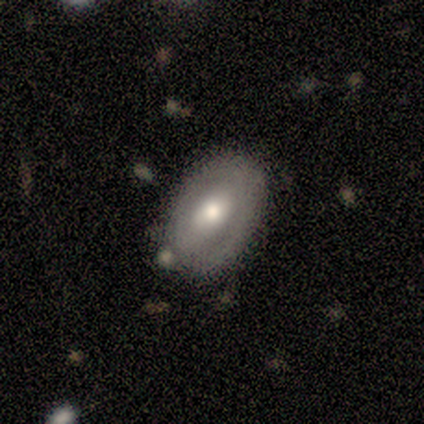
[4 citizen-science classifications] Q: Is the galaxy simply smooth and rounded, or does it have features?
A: featured or disk — 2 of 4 (50%).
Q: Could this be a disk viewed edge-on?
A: no — 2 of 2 (100%).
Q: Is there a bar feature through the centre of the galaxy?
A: weak — 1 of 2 (50%, tied with no).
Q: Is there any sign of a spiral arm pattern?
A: no — 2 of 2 (100%).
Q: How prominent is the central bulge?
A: moderate — 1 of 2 (50%, tied with small).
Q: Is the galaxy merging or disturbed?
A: none — 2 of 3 (67%).